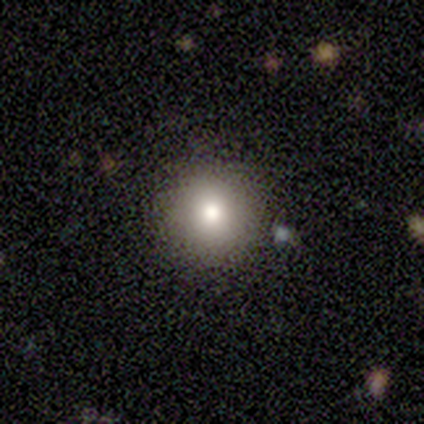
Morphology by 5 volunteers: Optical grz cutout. It shows a smooth galaxy with no disk features (100%) that is round (100%). Merging: none (100%).